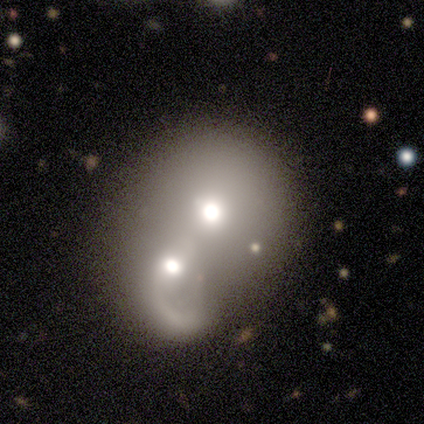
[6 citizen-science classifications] A featured or disk galaxy (50%) with a weak bar (50%, tied with no), 1 (100%) medium (50%, tied with loose) spiral arms (100%) and a moderate central bulge (50%, tied with small).

Vote fractions:
- Smooth or featured? featured or disk: 50% / smooth: 33% / star or artifact: 17%
- Edge-on disk? no: 67% / yes: 33%
- Bar? weak: 50% (tied) / no: 50% (tied) / strong: 0%
- Spiral arms? yes: 100% / no: 0%
- Spiral winding? medium: 50% (tied) / loose: 50% (tied) / tight: 0%
- Spiral arm count? 1: 100% / 2: 0% / 3: 0% / 4: 0% / more than 4: 0% / can't tell: 0%
- Bulge size? moderate: 50% (tied) / small: 50% (tied) / dominant: 0% / large: 0% / none: 0%
- Merging? merger: 100% / none: 0% / minor disturbance: 0% / major disturbance: 0%